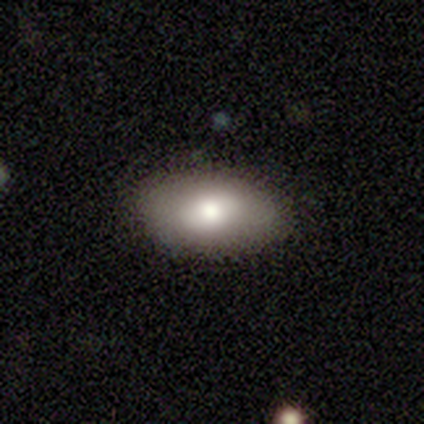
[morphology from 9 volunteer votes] Smooth or featured?
  - smooth: 67% *
  - featured or disk: 22%
  - star or artifact: 11%
How rounded?
  - in between: 100% *
  - round: 0%
  - cigar-shaped: 0%
Merging?
  - none: 88% *
  - minor disturbance: 12%
  - major disturbance: 0%
  - merger: 0%